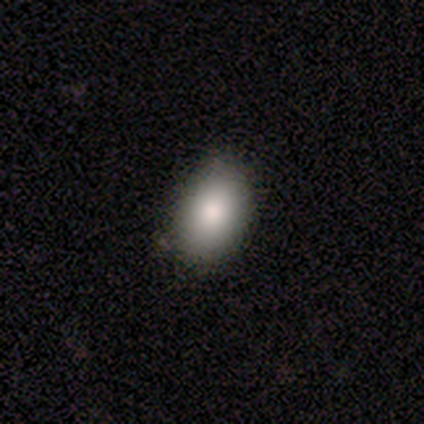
Volunteers were most divided on "smooth or featured": smooth: 50%, featured or disk: 25%, star or artifact: 25%. More confident: how rounded — in between (100%); merging — none (67%).